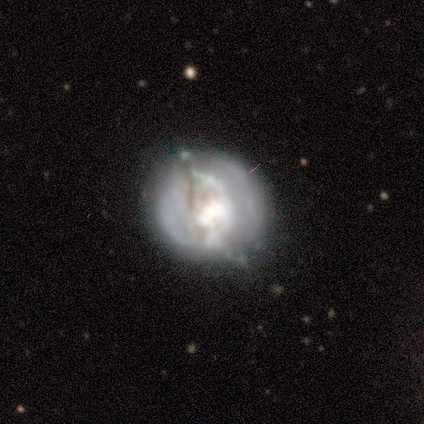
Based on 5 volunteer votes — Smooth or featured? 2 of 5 (40%, tied with featured or disk) said smooth. How rounded? 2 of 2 (100%) said round. Merging? 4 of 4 (100%) said none.